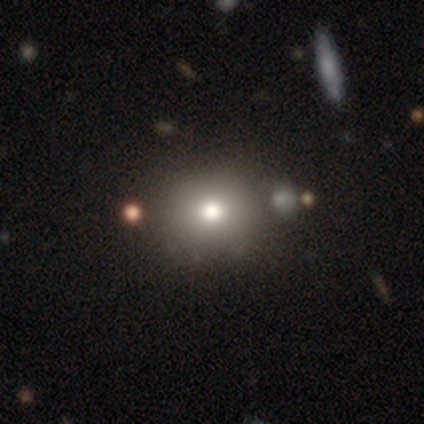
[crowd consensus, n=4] Smooth or featured?
  - smooth: 75% *
  - featured or disk: 25%
  - star or artifact: 0%
How rounded?
  - round: 33% * (tied)
  - in between: 33% * (tied)
  - cigar-shaped: 33% * (tied)
Merging?
  - none: 75% *
  - minor disturbance: 25%
  - major disturbance: 0%
  - merger: 0%